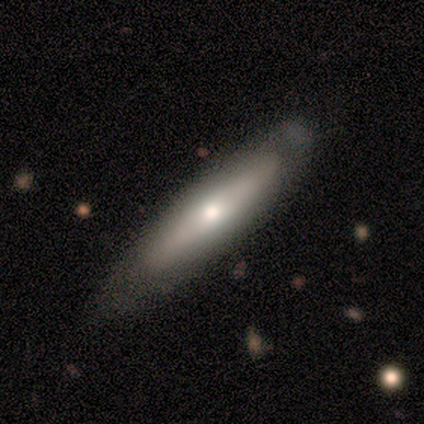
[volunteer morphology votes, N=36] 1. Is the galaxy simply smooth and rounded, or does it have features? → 50% featured or disk, 47% smooth, 3% star or artifact.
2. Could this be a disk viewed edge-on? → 61% yes, 39% no.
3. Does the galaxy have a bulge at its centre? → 82% rounded, 9% boxy, 9% none.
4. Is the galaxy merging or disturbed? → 66% none, 31% minor disturbance, 3% major disturbance, 0% merger.